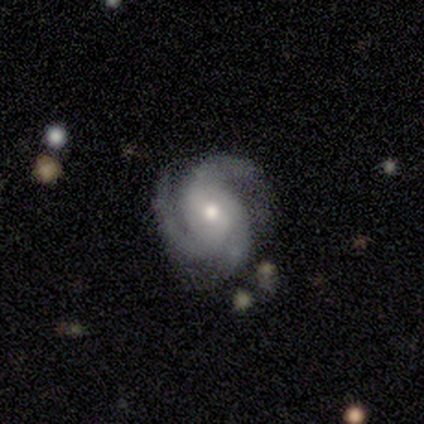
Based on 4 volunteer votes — Smooth or featured: featured or disk — 100%
Edge-on disk: no — 100%
Bar: no — 75% (weak — 25%)
Spiral arms: yes — 100%
Spiral winding: medium — 75% (tight — 25%)
Spiral arm count: 3 — 75% (2 — 25%)
Bulge size: moderate — 100%
Merging: none — 100%